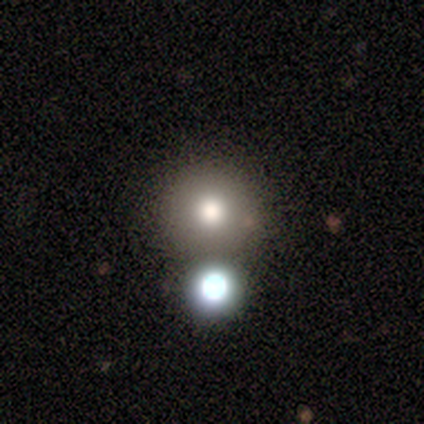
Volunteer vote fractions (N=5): Smooth or featured: smooth — 80% (featured or disk — 20%)
How rounded: round — 100%
Merging: none — 100%